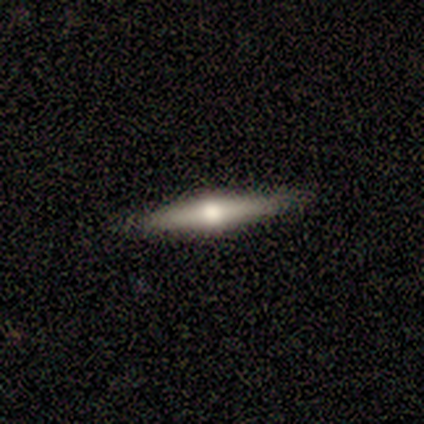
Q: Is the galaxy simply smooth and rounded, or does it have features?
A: featured or disk — 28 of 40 (70%).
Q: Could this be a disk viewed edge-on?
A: yes — 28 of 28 (100%).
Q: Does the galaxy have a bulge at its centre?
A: rounded — 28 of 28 (100%).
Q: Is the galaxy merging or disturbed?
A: none — 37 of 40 (92%).